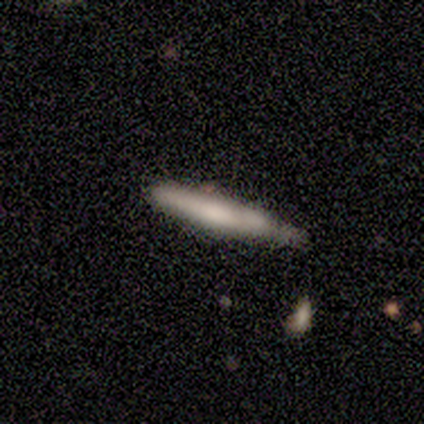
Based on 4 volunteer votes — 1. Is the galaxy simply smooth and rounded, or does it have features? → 75% smooth, 25% featured or disk, 0% star or artifact.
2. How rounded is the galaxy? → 100% cigar-shaped, 0% round, 0% in between.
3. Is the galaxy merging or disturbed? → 75% minor disturbance, 25% none, 0% major disturbance, 0% merger.